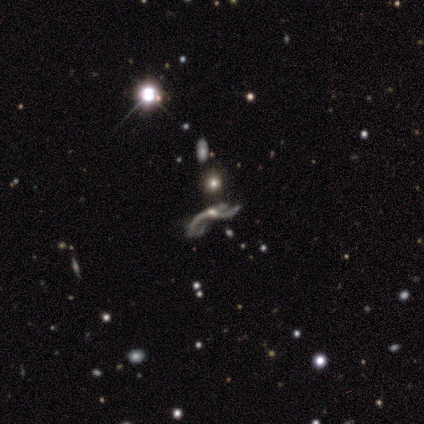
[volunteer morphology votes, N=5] This is clearly a featured or disk galaxy (100%). It is clearly not viewed edge-on (80%). Bar: likely no (75%). Spiral arm pattern: clearly yes (100%). Spiral arm count: possibly 2 (50%, tied with 3). Spiral winding: clearly loose (100%). Central bulge: likely moderate (75%). Merging: likely major disturbance (60%).